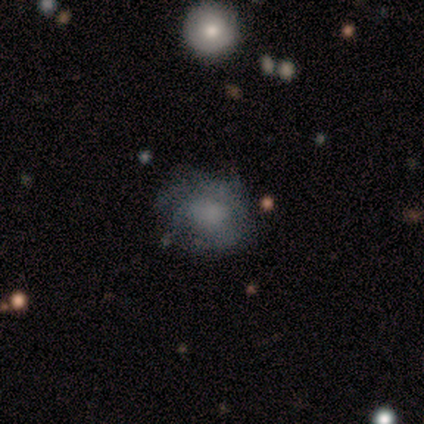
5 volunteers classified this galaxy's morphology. smooth-or-featured: smooth: 40% (tied) | featured or disk: 40% (tied) | star or artifact: 20%
  how-rounded: round: 50% (tied) | in between: 50% (tied) | cigar-shaped: 0%
  merging: none: 50% | minor disturbance: 25% | major disturbance: 25% | merger: 0%